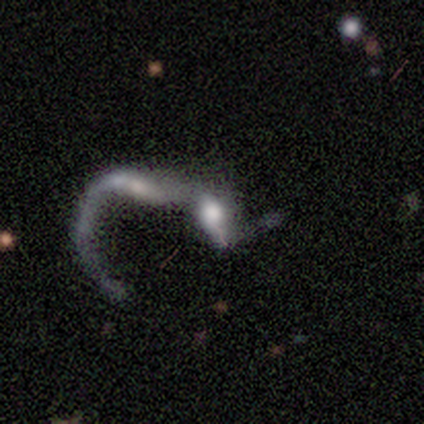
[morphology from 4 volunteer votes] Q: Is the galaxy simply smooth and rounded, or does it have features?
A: featured or disk — 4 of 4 (100%).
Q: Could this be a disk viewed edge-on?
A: yes — 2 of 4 (50%, tied with no).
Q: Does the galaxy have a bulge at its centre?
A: rounded — 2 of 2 (100%).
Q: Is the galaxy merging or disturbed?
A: merger — 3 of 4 (75%).